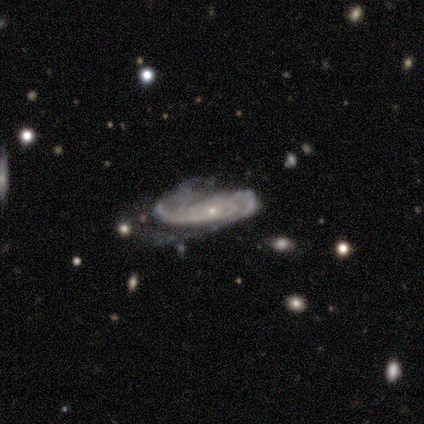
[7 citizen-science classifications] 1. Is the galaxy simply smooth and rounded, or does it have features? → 86% featured or disk, 14% star or artifact, 0% smooth.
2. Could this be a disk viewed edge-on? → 100% no, 0% yes.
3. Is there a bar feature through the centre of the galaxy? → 83% no, 17% strong, 0% weak.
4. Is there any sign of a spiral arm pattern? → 100% yes, 0% no.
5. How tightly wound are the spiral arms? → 50% tight, 33% medium, 17% loose.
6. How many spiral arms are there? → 67% 2, 17% 3, 17% can't tell, 0% 1, 0% 4, 0% more than 4.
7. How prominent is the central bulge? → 100% small, 0% dominant, 0% large, 0% moderate, 0% none.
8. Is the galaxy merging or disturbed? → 50% none (tied), 50% major disturbance (tied), 0% minor disturbance, 0% merger.